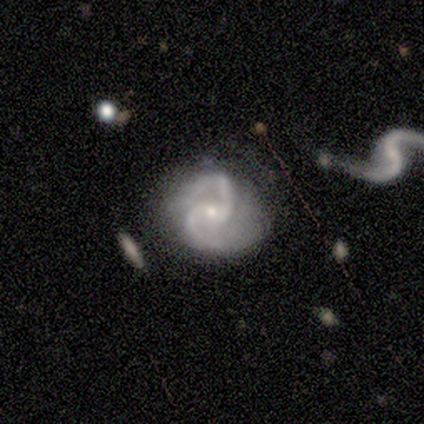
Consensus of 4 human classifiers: Smooth or featured? featured or disk (100%)
Edge-on disk? no (100%)
Bar? no (50%)
Spiral arms? yes (100%)
Spiral winding? medium (100%)
Spiral arm count? 2 (100%)
Bulge size? small (100%)
Merging? none (75%)